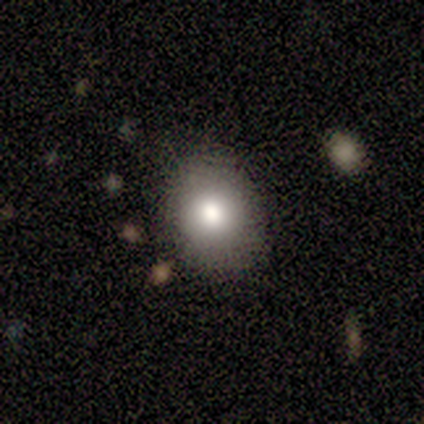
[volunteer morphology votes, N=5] Q: Smooth or featured?
A: smooth (80%); runner-up: featured or disk (20%)
Q: How rounded?
A: in between (75%); runner-up: round (25%)
Q: Merging?
A: none (80%); runner-up: minor disturbance (20%)